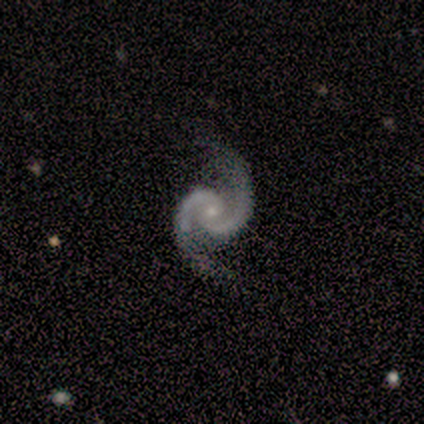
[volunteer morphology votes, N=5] Smooth or featured? featured or disk (100%)
Edge-on disk? no (100%)
Bar? weak (40%, tied with no)
Spiral arms? yes (100%)
Spiral winding? medium (60%)
Spiral arm count? 2 (100%)
Bulge size? small (60%)
Merging? none (80%)